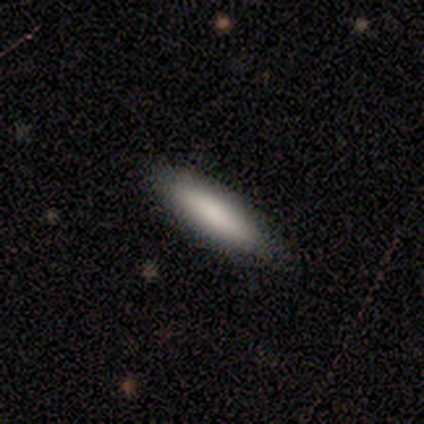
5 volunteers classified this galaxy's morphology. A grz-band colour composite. It shows a smooth galaxy with no disk features (40%, tied with featured or disk) that is in between round and cigar-shaped (50%, tied with cigar-shaped). Merging: none (100%).